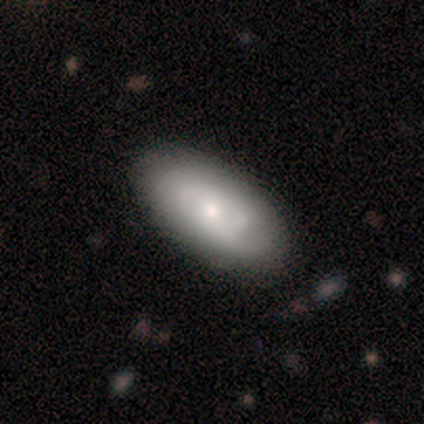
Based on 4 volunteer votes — Q: Smooth or featured?
A: smooth (50%); tied with: featured or disk (50%)
Q: How rounded?
A: in between (100%)
Q: Merging?
A: minor disturbance (75%); runner-up: none (25%)